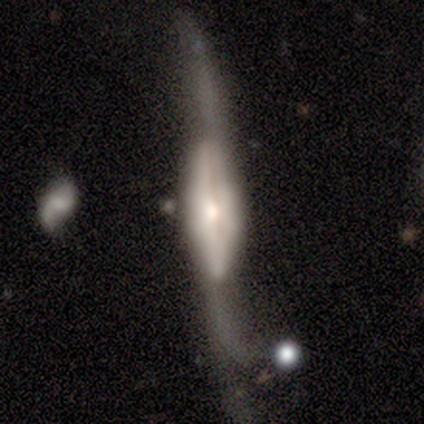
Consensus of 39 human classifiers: smooth-or-featured: featured or disk: 67% | smooth: 28% | star or artifact: 5%
  disk-edge-on: yes: 88% | no: 12%
    edge-on-bulge: rounded: 65% | boxy: 30% | none: 4%
  merging: none: 46% | minor disturbance: 27% | major disturbance: 27% | merger: 0%